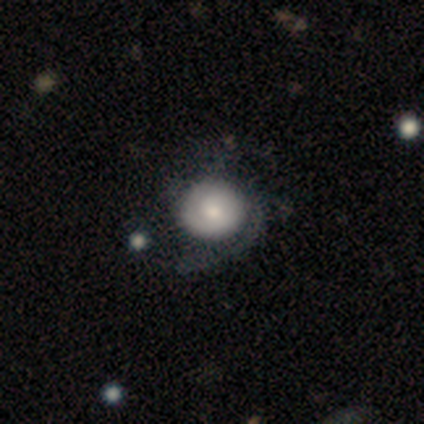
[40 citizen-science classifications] This appears to be a featured or disk galaxy (65%) with no bar (69%), 2 (57%) medium (43%) spiral arms (81%) and a moderate central bulge (46%). Merging: none (46%).